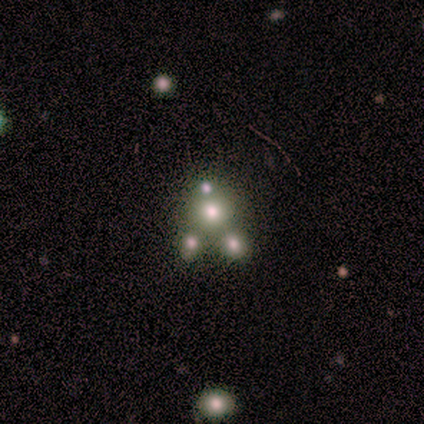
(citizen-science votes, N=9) This is marginally a smooth galaxy (33%, tied with featured or disk and star or artifact). How rounded: clearly round (100%). Merging: possibly none (50%, tied with merger).